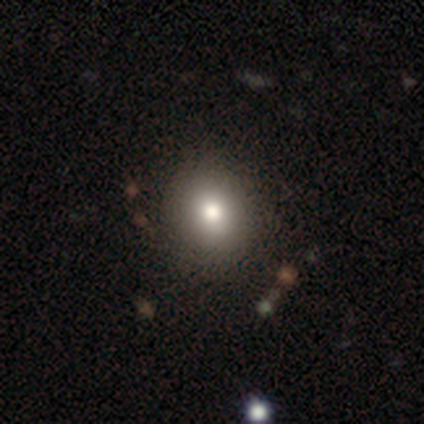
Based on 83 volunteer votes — This is likely a smooth galaxy (75%). How rounded: clearly round (82%). Merging: clearly none (90%).